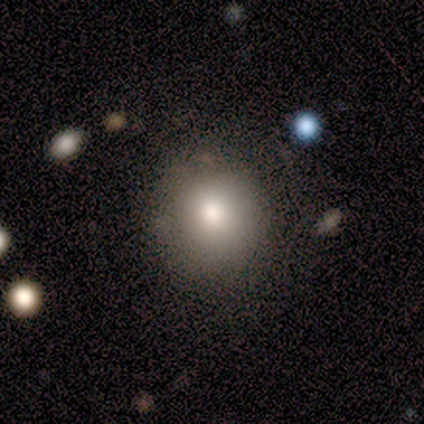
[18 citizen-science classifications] Smooth or featured?
  - smooth: 89% *
  - featured or disk: 6%
  - star or artifact: 6%
How rounded?
  - round: 94% *
  - in between: 6%
  - cigar-shaped: 0%
Merging?
  - none: 88% *
  - minor disturbance: 6%
  - merger: 6%
  - major disturbance: 0%